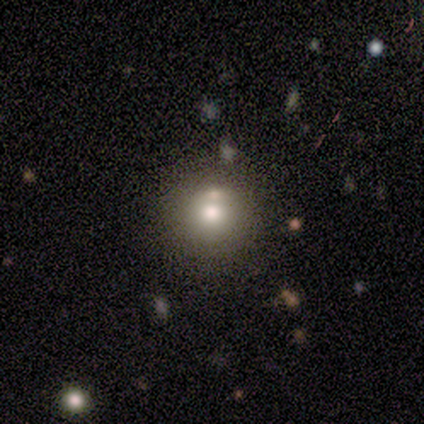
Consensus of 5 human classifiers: A smooth galaxy with no disk features (100%) that is round (100%).

Vote fractions:
- Smooth or featured? smooth: 100% / featured or disk: 0% / star or artifact: 0%
- How rounded? round: 100% / in between: 0% / cigar-shaped: 0%
- Merging? none: 60% / major disturbance: 20% / merger: 20% / minor disturbance: 0%